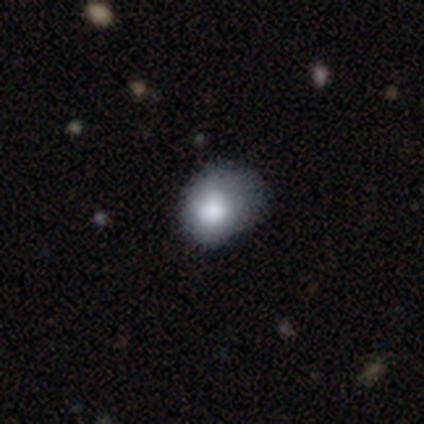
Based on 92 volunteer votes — Q: Smooth or featured?
A: smooth (86%); runner-up: featured or disk (8%)
Q: How rounded?
A: round (59%); runner-up: in between (39%)
Q: Merging?
A: none (49%); runner-up: minor disturbance (36%)